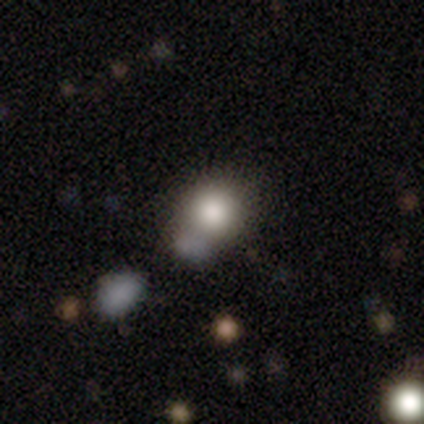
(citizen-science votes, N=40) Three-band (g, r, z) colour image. It shows a smooth galaxy with no disk features (80%) that is round (88%). Merging: none (54%).